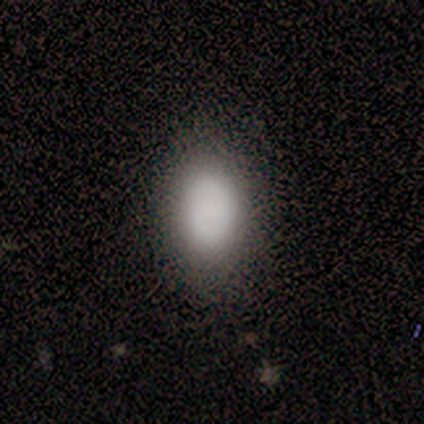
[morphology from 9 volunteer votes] Q: Smooth or featured?
A: smooth (89%); runner-up: featured or disk (11%)
Q: How rounded?
A: in between (88%); runner-up: round (12%)
Q: Merging?
A: none (100%)